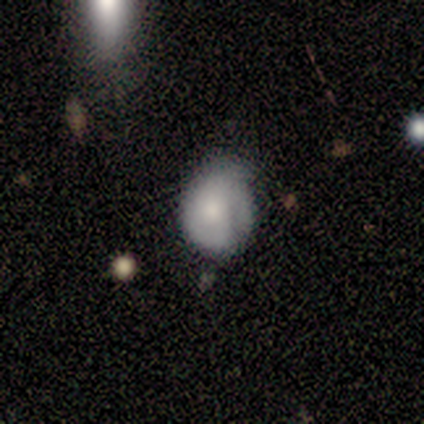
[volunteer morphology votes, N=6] Volunteers were most divided on "smooth or featured": smooth: 50%, featured or disk: 33%, star or artifact: 17%. More confident: merging — minor disturbance (80%); how rounded — in between (67%).